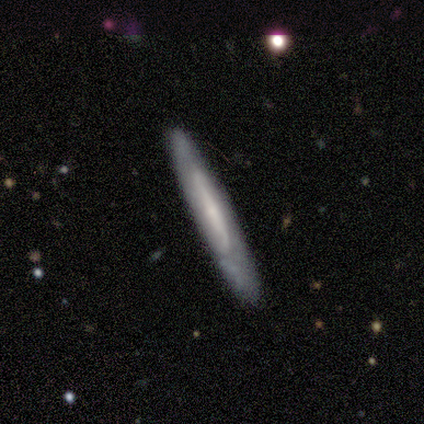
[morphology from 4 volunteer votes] Volunteers were most divided on "smooth or featured" (2-way tie): smooth: 50%, featured or disk: 50%, star or artifact: 0%. More confident: how rounded — cigar-shaped (100%); merging — none (75%).